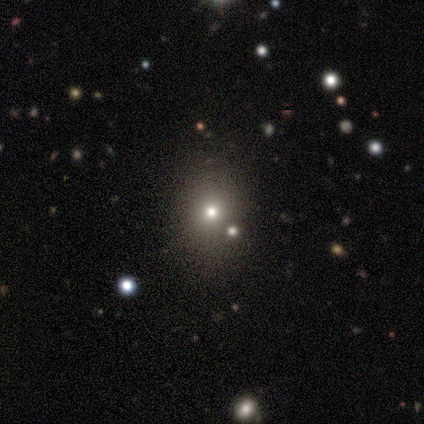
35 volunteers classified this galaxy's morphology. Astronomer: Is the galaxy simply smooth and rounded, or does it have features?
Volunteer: smooth — 51% (runner-up: star or artifact, 40%).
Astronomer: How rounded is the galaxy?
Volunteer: round — 61% (runner-up: in between, 39%).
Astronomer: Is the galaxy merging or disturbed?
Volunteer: none — 62%.